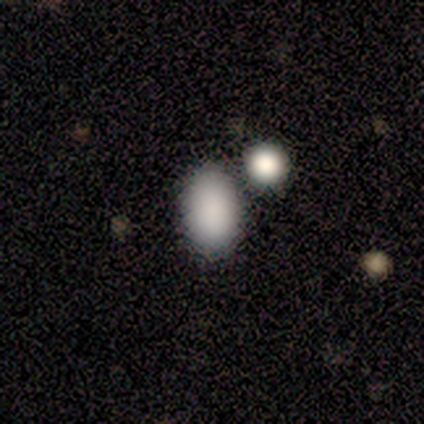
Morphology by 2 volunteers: smooth 100%, featured or disk 0%, star or artifact 0%. Down the decision tree: how rounded — in between (100%); merging — none (100%).